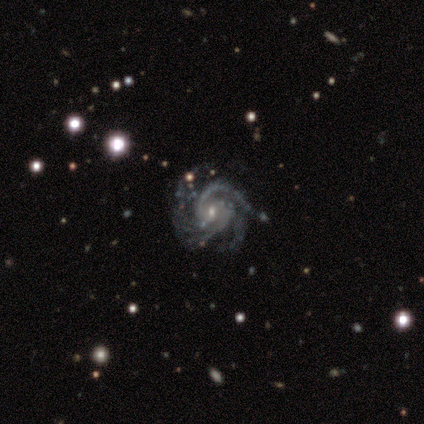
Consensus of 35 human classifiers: featured or disk 97%, star or artifact 3%, smooth 0%. Down the decision tree: edge-on disk — no (100%); bar — no (62%); spiral arms — yes (100%); spiral arm count — 3 (47%); spiral winding — tight (59%); bulge size — small (76%); merging — none (76%).